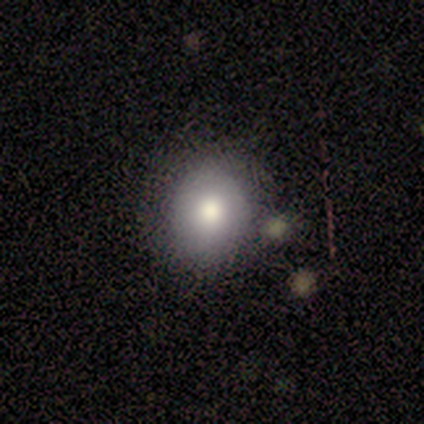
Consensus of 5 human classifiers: This is clearly a smooth galaxy (100%). How rounded: likely round (60%). Merging: clearly none (100%).